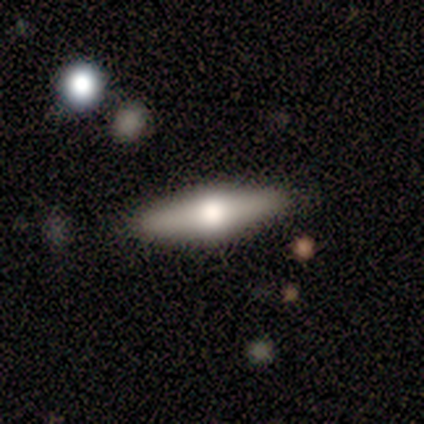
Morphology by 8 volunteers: smooth_or_featured: smooth (p=0.62) [alt: featured or disk p=0.38]
how_rounded: cigar-shaped (p=0.80) [alt: in between p=0.20]
merging: none (p=1.00)